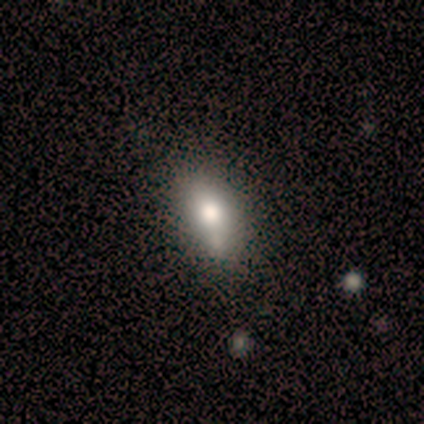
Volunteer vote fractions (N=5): smooth_or_featured: smooth (p=0.80) [alt: featured or disk p=0.20]
how_rounded: in between (p=1.00)
merging: none (p=0.80) [alt: minor disturbance p=0.20]